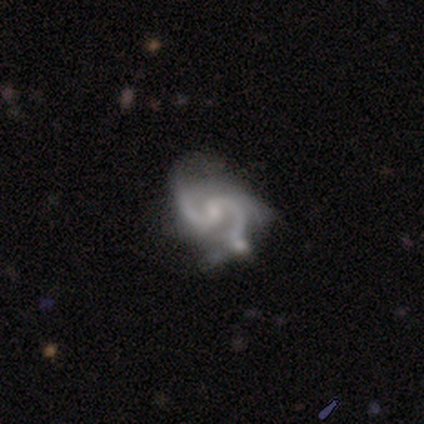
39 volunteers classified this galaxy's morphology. smooth-or-featured: featured or disk: 95% | smooth: 3% | star or artifact: 3%
  disk-edge-on: no: 100% | yes: 0%
    bar: no: 57% | weak: 35% | strong: 8%
    has-spiral-arms: yes: 97% | no: 3%
      spiral-winding: medium: 83% | loose: 11% | tight: 6%
      spiral-arm-count: 2: 83% | 3: 14% | 1: 3% | 4: 0% | more than 4: 0% | can't tell: 0%
    bulge-size: small: 62% | moderate: 19% | none: 19% | dominant: 0% | large: 0%
  merging: minor disturbance: 37% | none: 8% | major disturbance: 8% | merger: 8%